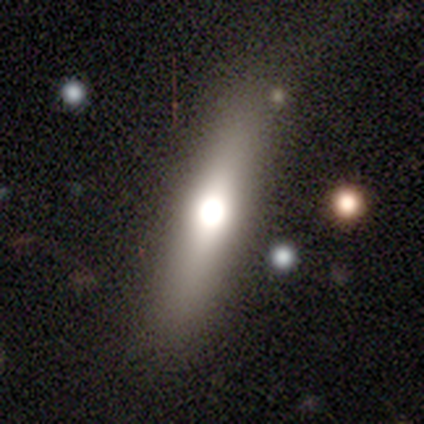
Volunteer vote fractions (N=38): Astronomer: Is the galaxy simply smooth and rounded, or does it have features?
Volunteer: smooth — 53% (runner-up: featured or disk, 34%).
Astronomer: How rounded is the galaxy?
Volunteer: cigar-shaped — 70%.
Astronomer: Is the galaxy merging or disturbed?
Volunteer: none — 85%.